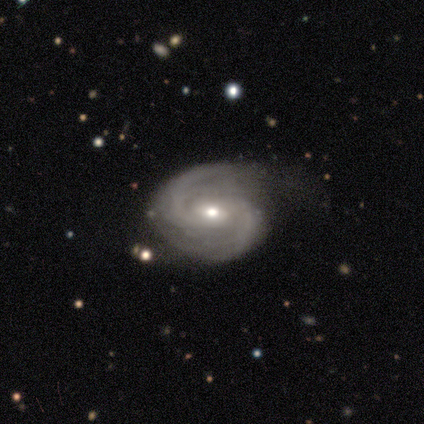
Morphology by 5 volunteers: A featured or disk galaxy (100%) with a weak bar (80%), 2 (100%) medium (80%) spiral arms (100%) and a moderate central bulge (60%).

Vote fractions:
- Smooth or featured? featured or disk: 100% / smooth: 0% / star or artifact: 0%
- Edge-on disk? no: 100% / yes: 0%
- Bar? weak: 80% / strong: 20% / no: 0%
- Spiral arms? yes: 100% / no: 0%
- Spiral winding? medium: 80% / loose: 20% / tight: 0%
- Spiral arm count? 2: 100% / 1: 0% / 3: 0% / 4: 0% / more than 4: 0% / can't tell: 0%
- Bulge size? moderate: 60% / small: 40% / dominant: 0% / large: 0% / none: 0%
- Merging? none: 60% / minor disturbance: 20% / major disturbance: 20% / merger: 0%